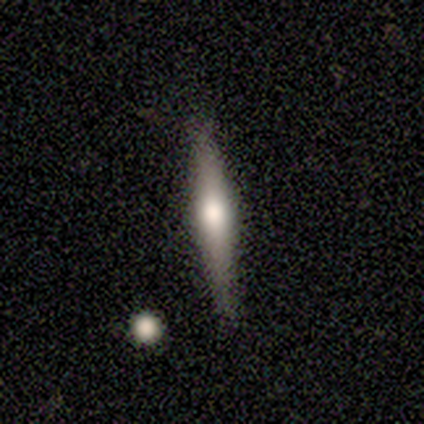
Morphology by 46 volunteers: A featured or disk galaxy (76%) viewed edge-on (94%) with a rounded central bulge (82%).

Vote fractions:
- Smooth or featured? featured or disk: 76% / smooth: 20% / star or artifact: 4%
- Edge-on disk? yes: 94% / no: 6%
- Edge-on bulge? rounded: 82% / boxy: 18% / none: 0%
- Merging? none: 82% / minor disturbance: 14% / major disturbance: 2% / merger: 2%